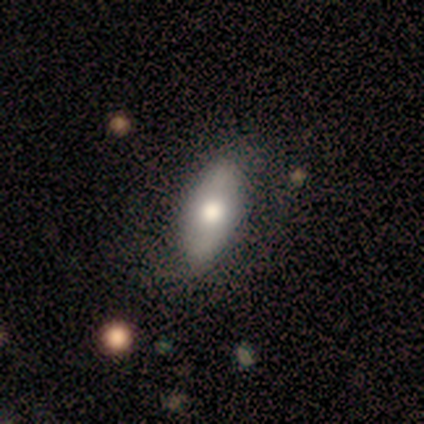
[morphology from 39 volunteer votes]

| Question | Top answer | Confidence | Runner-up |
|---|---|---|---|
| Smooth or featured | smooth | 64% | featured or disk (28%) |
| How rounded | in between | 84% | cigar-shaped (16%) |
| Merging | none | 75% | minor disturbance (14%) |